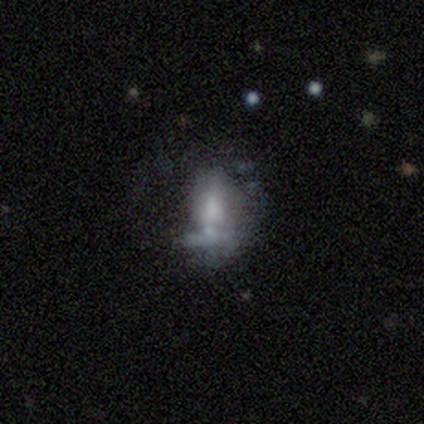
smooth-or-featured: featured or disk: 50% | smooth: 38% | star or artifact: 12%
  disk-edge-on: no: 100% | yes: 0%
    bar: no: 75% | weak: 25% | strong: 0%
    has-spiral-arms: no: 85% | yes: 15%
    bulge-size: none: 40% | small: 30% | large: 15% | moderate: 15% | dominant: 0%
  merging: none: 31% | major disturbance: 29% | merger: 23% | minor disturbance: 17%